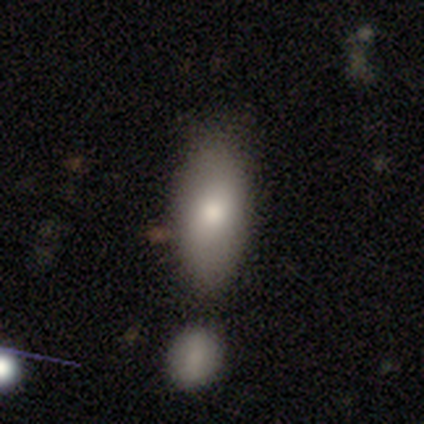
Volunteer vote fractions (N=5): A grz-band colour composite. It shows a smooth galaxy with no disk features (100%) that is in between round and cigar-shaped (100%). Merging: none (60%).